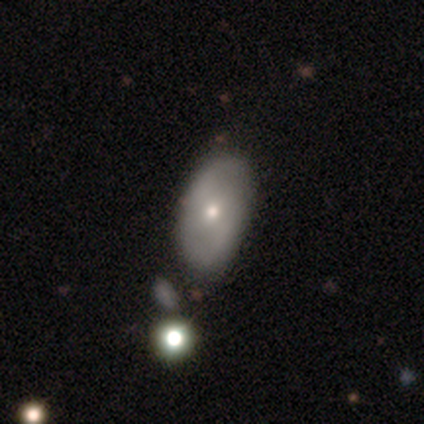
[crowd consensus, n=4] Q: Smooth or featured?
A: featured or disk (75%); runner-up: smooth (25%)
Q: Edge-on disk?
A: no (100%)
Q: Bar?
A: no (100%)
Q: Spiral arms?
A: no (67%); runner-up: yes (33%)
Q: Bulge size?
A: small (67%); runner-up: moderate (33%)
Q: Merging?
A: none (75%); runner-up: minor disturbance (25%)